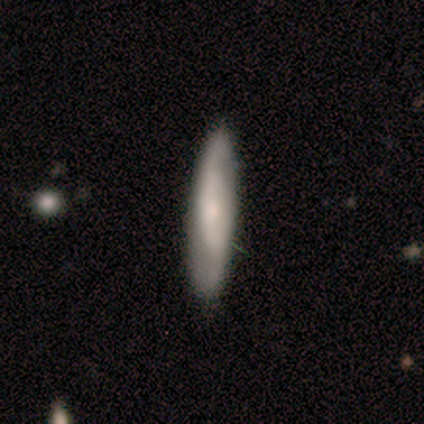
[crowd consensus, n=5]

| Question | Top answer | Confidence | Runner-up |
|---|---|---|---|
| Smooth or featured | smooth | 40% | tied: featured or disk (40%) |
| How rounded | cigar-shaped | 100% | — |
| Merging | none | 100% | — |